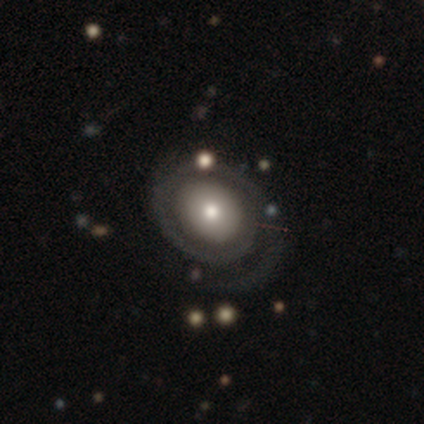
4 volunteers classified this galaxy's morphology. Volunteers were most divided on "spiral winding": tight: 67%, medium: 33%, loose: 0%. More confident: edge-on disk — no (100%); bar — no (100%); spiral arms — yes (100%); merging — none (100%); smooth or featured — featured or disk (75%); spiral arm count — 1 (67%); bulge size — small (67%).